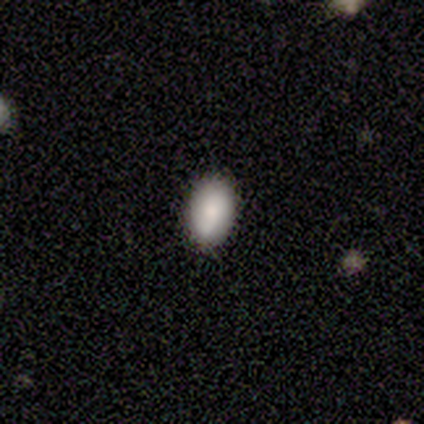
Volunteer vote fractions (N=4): This appears to be a smooth galaxy with no disk features (100%) that is in between round and cigar-shaped (100%). Merging: none (100%).